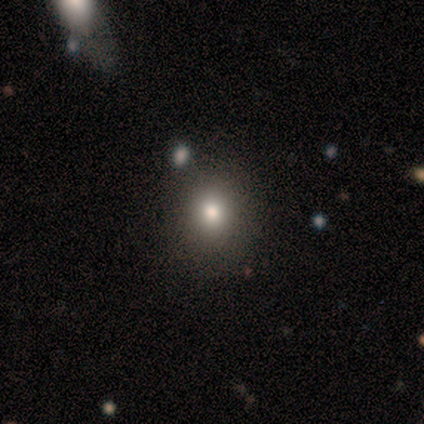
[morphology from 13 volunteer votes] This is clearly a smooth galaxy (85%). How rounded: clearly round (82%). Merging: clearly none (82%).